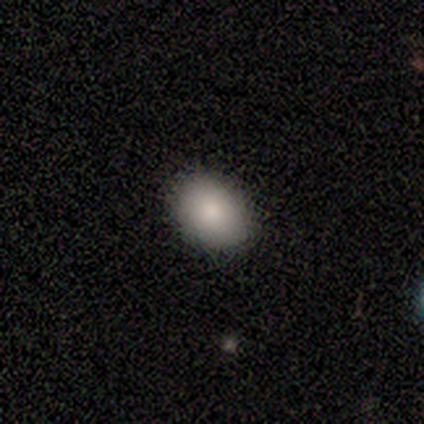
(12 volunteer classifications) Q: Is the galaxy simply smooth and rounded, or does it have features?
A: smooth — 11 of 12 (92%).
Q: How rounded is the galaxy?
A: in between — 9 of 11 (82%).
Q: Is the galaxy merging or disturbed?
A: none — 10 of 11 (91%).